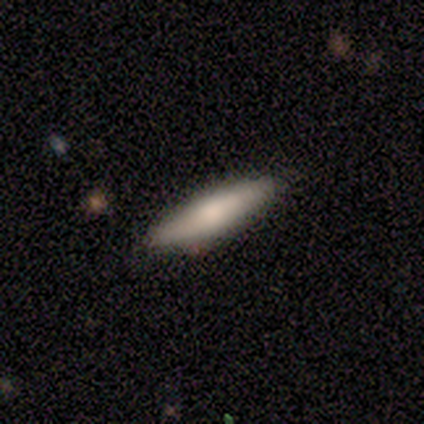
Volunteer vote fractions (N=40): This is likely a smooth galaxy (70%). How rounded: likely cigar-shaped (75%). Merging: clearly none (95%).